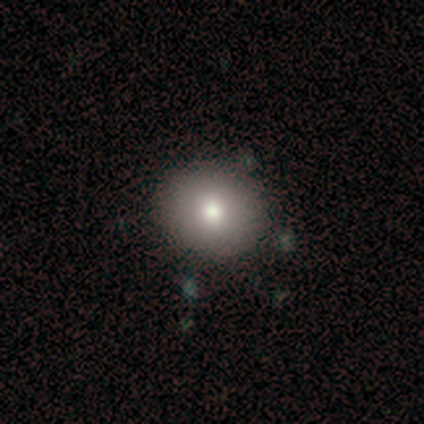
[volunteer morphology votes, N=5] This is clearly a smooth galaxy (100%). How rounded: likely round (60%). Merging: clearly none (100%).